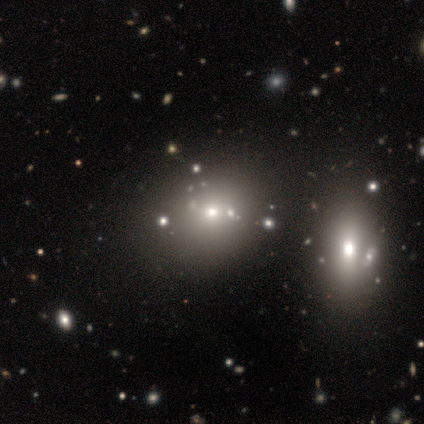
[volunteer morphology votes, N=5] Smooth or featured? 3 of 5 (60%) said smooth. How rounded? 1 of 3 (33%, tied with in between and cigar-shaped) said round. Merging? 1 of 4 (25%, tied with minor disturbance, major disturbance and merger) said none.